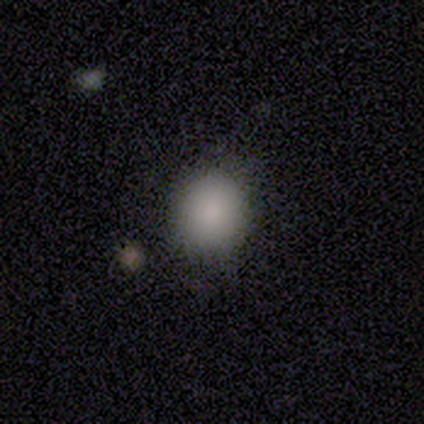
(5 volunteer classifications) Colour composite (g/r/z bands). It shows a smooth galaxy with no disk features (80%) that is round (75%). Merging: none (50%).